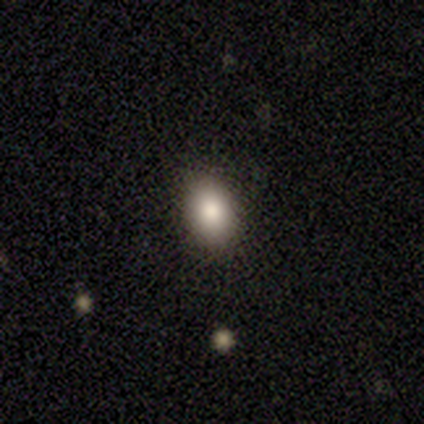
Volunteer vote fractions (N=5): Morphology: type=smooth (100%); roundness=in between (80%); merging=none (80%).